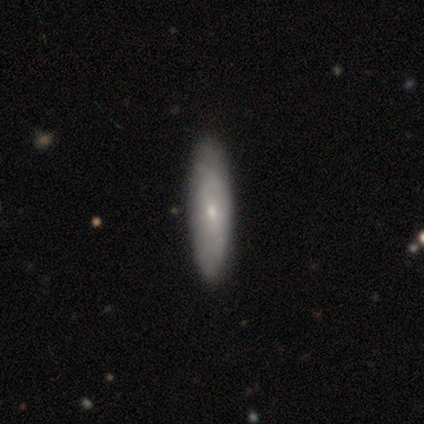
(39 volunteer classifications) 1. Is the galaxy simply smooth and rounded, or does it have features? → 51% featured or disk, 46% smooth, 3% star or artifact.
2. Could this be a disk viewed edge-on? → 80% no, 20% yes.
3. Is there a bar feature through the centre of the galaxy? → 81% no, 19% weak, 0% strong.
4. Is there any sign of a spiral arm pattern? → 50% yes (tied), 50% no (tied).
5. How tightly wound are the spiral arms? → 38% tight (tied), 38% medium (tied), 25% loose.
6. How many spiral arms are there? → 88% can't tell, 12% 1, 0% 2, 0% 3, 0% 4, 0% more than 4.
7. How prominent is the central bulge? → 50% small, 44% moderate, 6% none, 0% dominant, 0% large.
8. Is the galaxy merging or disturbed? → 53% none, 16% minor disturbance, 5% merger, 3% major disturbance.